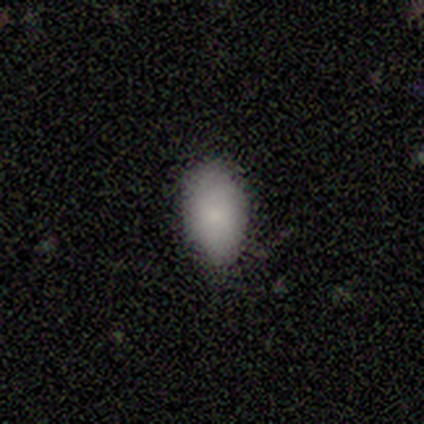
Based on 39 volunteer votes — This is clearly a smooth galaxy (82%). How rounded: clearly in between (94%). Merging: clearly none (80%).